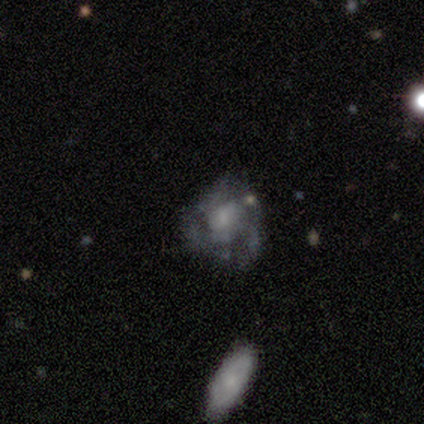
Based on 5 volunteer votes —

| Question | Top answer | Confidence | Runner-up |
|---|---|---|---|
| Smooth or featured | featured or disk | 80% | smooth (20%) |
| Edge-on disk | no | 100% | — |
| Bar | no | 75% | strong (25%) |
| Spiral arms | yes | 100% | — |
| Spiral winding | loose | 50% | tight (25%) |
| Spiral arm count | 3 | 50% | tied: 4 (50%) |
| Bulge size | moderate | 75% | small (25%) |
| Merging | none | 80% | major disturbance (20%) |